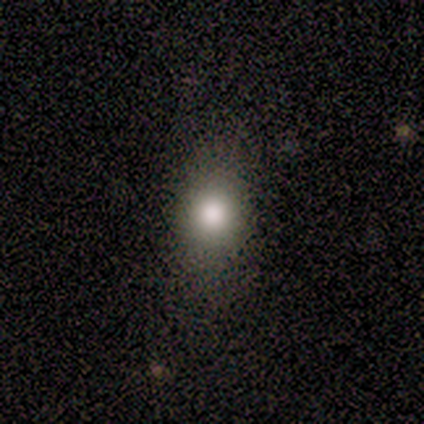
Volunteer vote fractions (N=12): Smooth or featured? smooth (50%)
How rounded? round (67%)
Merging? none (78%)